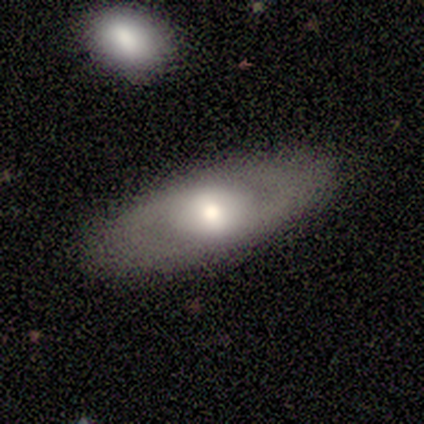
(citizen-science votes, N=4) A smooth galaxy with no disk features (75%) that is in between round and cigar-shaped (100%). Merging: none (100%).